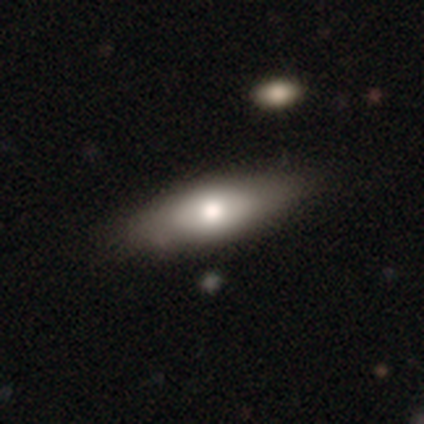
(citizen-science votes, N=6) smooth_or_featured: smooth (p=0.83) [alt: featured or disk p=0.17]
how_rounded: in between (p=0.80) [alt: cigar-shaped p=0.20]
merging: none (p=0.67) [alt: minor disturbance p=0.17]